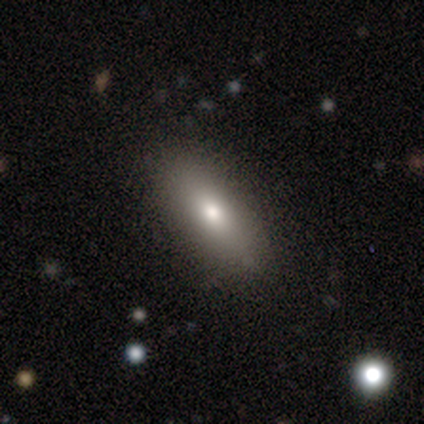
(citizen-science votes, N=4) A smooth galaxy with no disk features (100%) that is cigar-shaped (75%). Merging: none (100%).